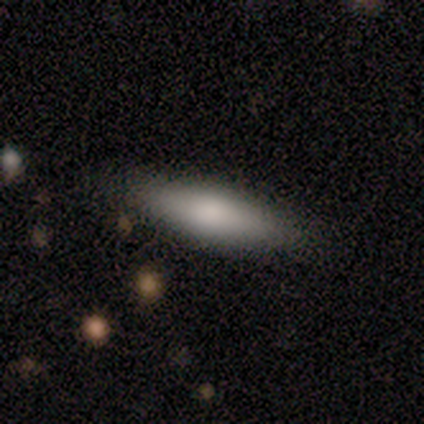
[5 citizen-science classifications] Smooth or featured?
  - smooth: 100% *
  - featured or disk: 0%
  - star or artifact: 0%
How rounded?
  - cigar-shaped: 80% *
  - in between: 20%
  - round: 0%
Merging?
  - none: 100% *
  - minor disturbance: 0%
  - major disturbance: 0%
  - merger: 0%